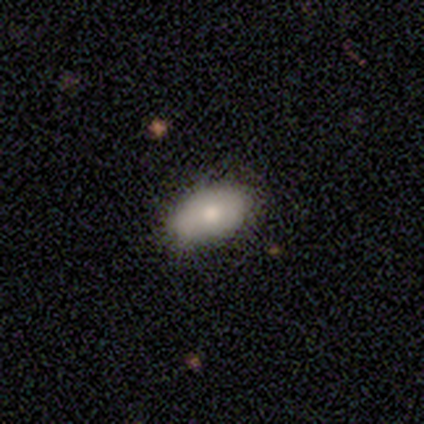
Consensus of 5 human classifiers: Smooth or featured? 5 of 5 (100%) said smooth. How rounded? 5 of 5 (100%) said in between. Merging? 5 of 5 (100%) said none.